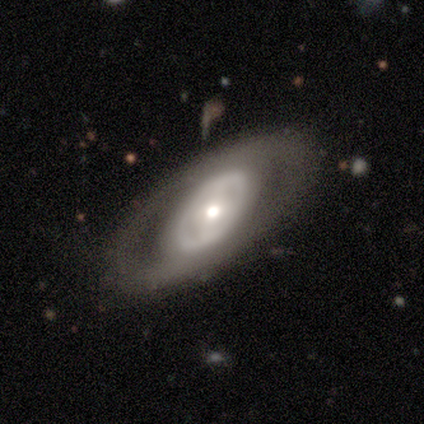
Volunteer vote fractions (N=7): Smooth or featured?
  - featured or disk: 71% *
  - smooth: 29%
  - star or artifact: 0%
Edge-on disk?
  - no: 100% *
  - yes: 0%
Bar?
  - no: 80% *
  - weak: 20%
  - strong: 0%
Spiral arms?
  - no: 60% *
  - yes: 40%
Bulge size?
  - moderate: 60% *
  - large: 20%
  - small: 20%
  - dominant: 0%
  - none: 0%
Merging?
  - none: 71% *
  - minor disturbance: 14%
  - major disturbance: 14%
  - merger: 0%